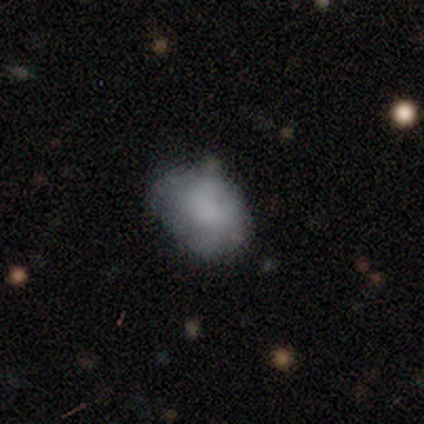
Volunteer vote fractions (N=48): Smooth or featured? smooth (67%)
How rounded? in between (81%)
Merging? none (59%)